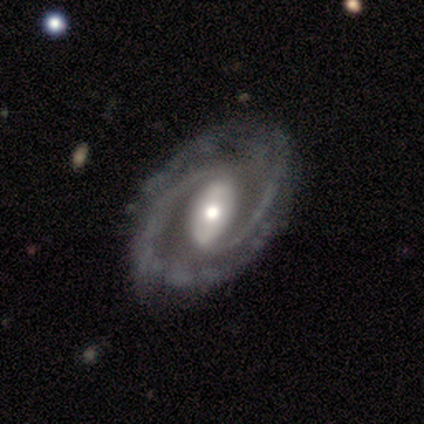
This appears to be a featured or disk galaxy (97%) with a strong bar (59%), 2 (89%) medium (42%) spiral arms (97%) and a moderate central bulge (51%). Merging: none (57%).